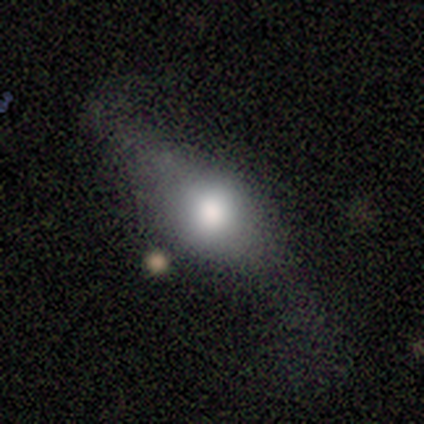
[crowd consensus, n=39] Smooth or featured? 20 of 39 (51%) said smooth. How rounded? 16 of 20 (80%) said in between. Merging? 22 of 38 (58%) said none.